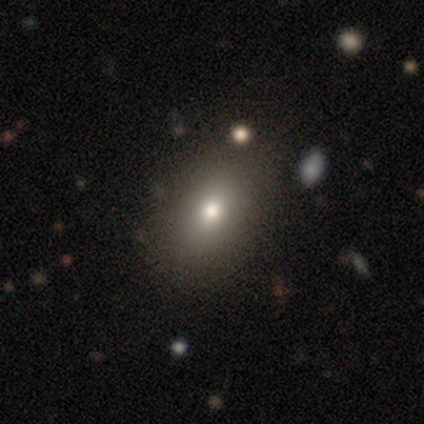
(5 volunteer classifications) A smooth galaxy with no disk features (80%) that is in between round and cigar-shaped (75%).

Vote fractions:
- Smooth or featured? smooth: 80% / featured or disk: 20% / star or artifact: 0%
- How rounded? in between: 75% / round: 25% / cigar-shaped: 0%
- Merging? none: 60% / minor disturbance: 40% / major disturbance: 0% / merger: 0%